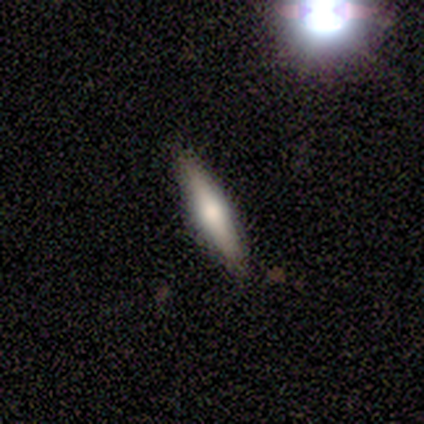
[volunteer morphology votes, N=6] Smooth or featured? 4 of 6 (67%) said smooth. How rounded? 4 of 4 (100%) said cigar-shaped. Merging? 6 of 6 (100%) said none.